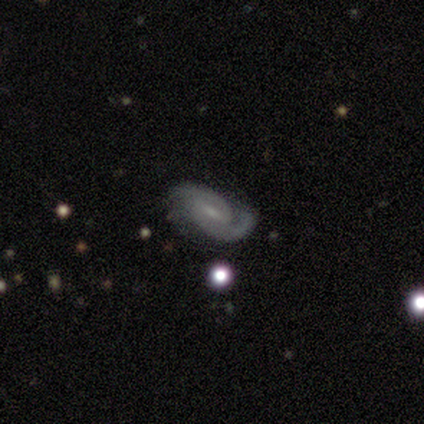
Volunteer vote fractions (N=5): smooth_or_featured: featured or disk (p=1.00)
disk_edge_on: no (p=1.00)
bar: weak (p=0.40) [tied with: no p=0.40]
has_spiral_arms: yes (p=1.00)
spiral_winding: medium (p=0.60) [alt: tight p=0.20]
spiral_arm_count: 2 (p=0.80) [alt: 1 p=0.20]
bulge_size: moderate (p=0.60) [alt: small p=0.40]
merging: none (p=0.80) [alt: minor disturbance p=0.20]